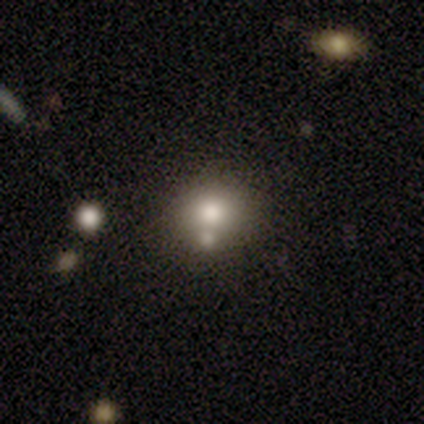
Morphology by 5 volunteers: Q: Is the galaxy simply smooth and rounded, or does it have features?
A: smooth — 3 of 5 (60%).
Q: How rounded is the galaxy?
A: round — 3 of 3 (100%).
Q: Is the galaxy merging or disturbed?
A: none — 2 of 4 (50%, tied with minor disturbance).